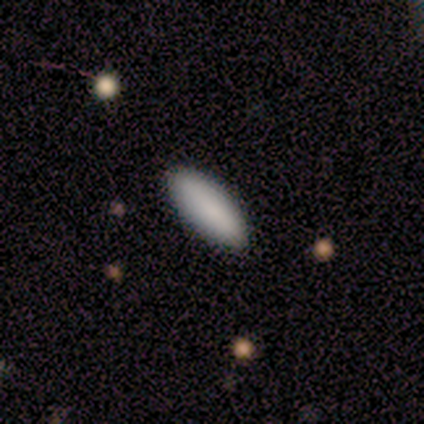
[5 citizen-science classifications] This is clearly a smooth galaxy (100%). How rounded: likely in between (60%). Merging: clearly none (100%).